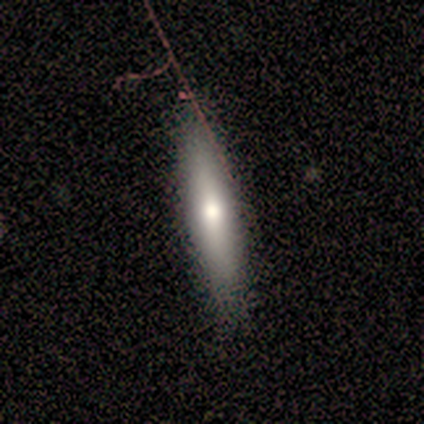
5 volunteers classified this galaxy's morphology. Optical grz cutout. It shows a smooth galaxy with no disk features (40%, tied with featured or disk) that is in between round and cigar-shaped (50%, tied with cigar-shaped). Merging: none (100%).